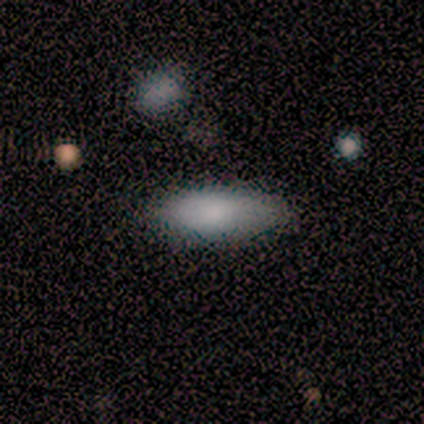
Volunteers were most divided on "how rounded": in between: 80%, cigar-shaped: 20%, round: 0%. More confident: smooth or featured — smooth (100%); merging — none (100%).